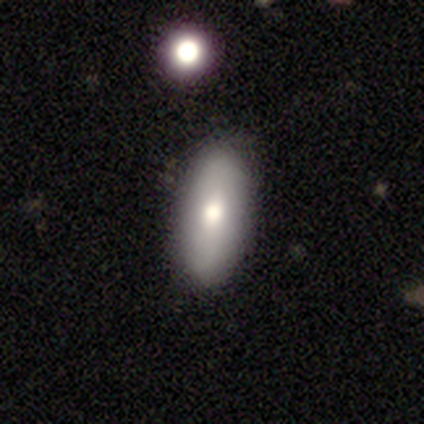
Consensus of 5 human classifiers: smooth 80%, star or artifact 20%, featured or disk 0%. Down the decision tree: how rounded — in between (100%); merging — none (100%).